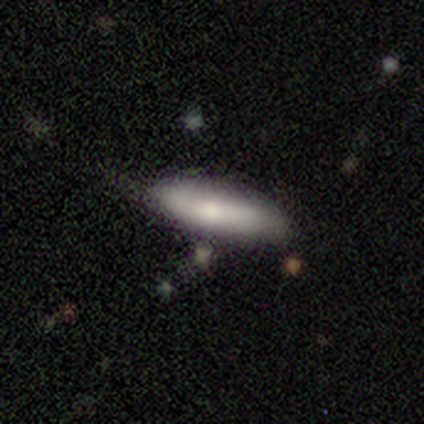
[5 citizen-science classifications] Smooth or featured? 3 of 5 (60%) said smooth. How rounded? 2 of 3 (67%) said in between. Merging? 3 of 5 (60%) said none.